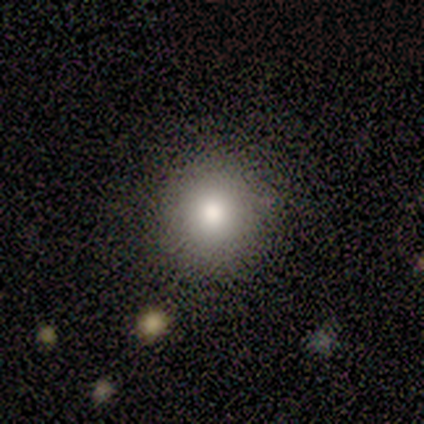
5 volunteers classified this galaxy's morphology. type=smooth (60%); roundness=round (100%); merging=none (100%).